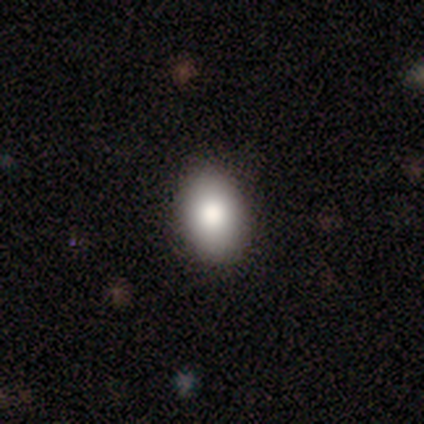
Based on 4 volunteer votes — smooth-or-featured: smooth: 100% | featured or disk: 0% | star or artifact: 0%
  how-rounded: round: 50% (tied) | in between: 50% (tied) | cigar-shaped: 0%
  merging: none: 75% | minor disturbance: 25% | major disturbance: 0% | merger: 0%